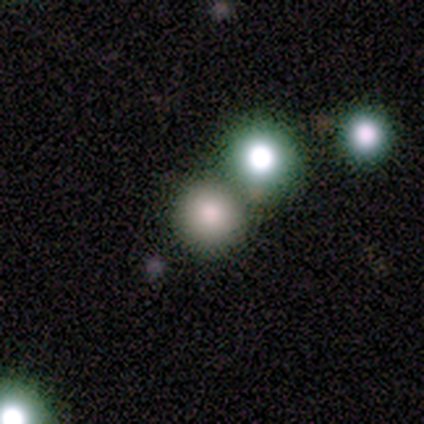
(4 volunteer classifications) smooth 75%, featured or disk 25%, star or artifact 0%. Down the decision tree: how rounded — round (100%); merging — none (75%).